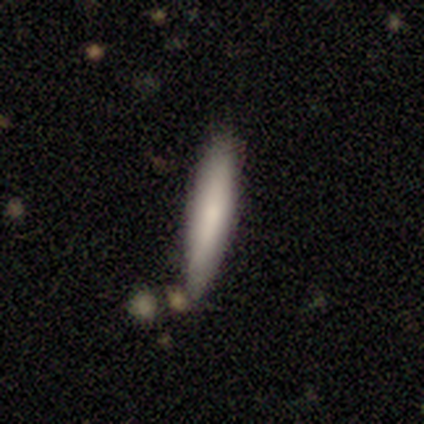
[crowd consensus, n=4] Smooth or featured? smooth (75%)
How rounded? cigar-shaped (67%)
Merging? none (50%)